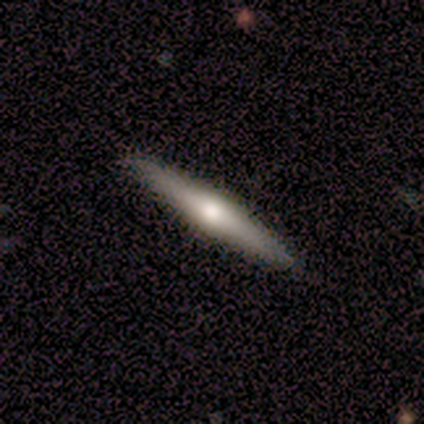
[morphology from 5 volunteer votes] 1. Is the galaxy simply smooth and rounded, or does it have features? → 80% smooth, 20% featured or disk, 0% star or artifact.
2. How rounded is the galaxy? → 100% cigar-shaped, 0% round, 0% in between.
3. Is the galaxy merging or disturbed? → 100% none, 0% minor disturbance, 0% major disturbance, 0% merger.